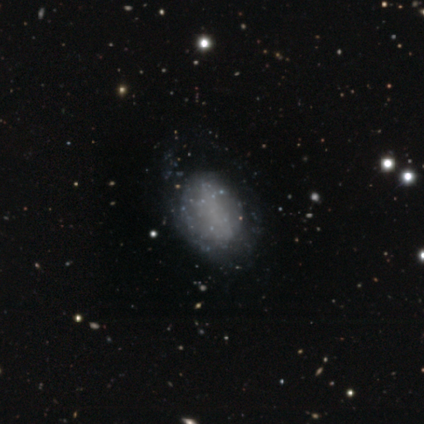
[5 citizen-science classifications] Morphology: type=featured or disk (60%); edge-on=no (100%); bar=no (67%); spiral arms=no (67%); bulge=none (100%); merging=none (80%).